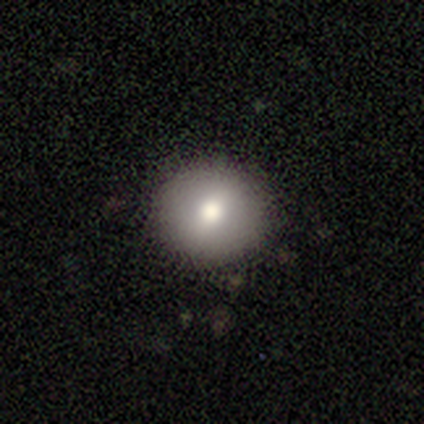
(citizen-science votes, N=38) Smooth or featured?
  - smooth: 76% *
  - featured or disk: 18%
  - star or artifact: 5%
How rounded?
  - round: 100% *
  - in between: 0%
  - cigar-shaped: 0%
Merging?
  - none: 92% *
  - minor disturbance: 6%
  - major disturbance: 3%
  - merger: 0%